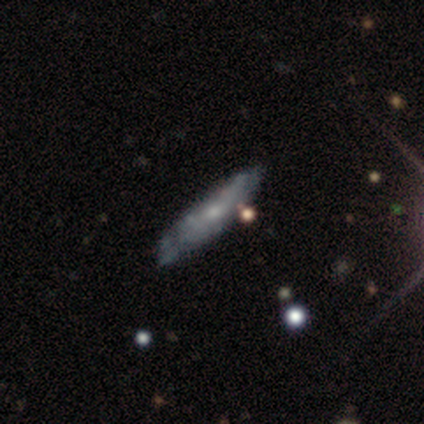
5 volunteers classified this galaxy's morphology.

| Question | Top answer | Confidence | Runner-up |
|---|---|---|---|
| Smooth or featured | featured or disk | 60% | smooth (40%) |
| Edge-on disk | no | 67% | yes (33%) |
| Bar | weak | 50% | tied: no (50%) |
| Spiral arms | yes | 50% | tied: no (50%) |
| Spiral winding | medium | 100% | — |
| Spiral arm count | can't tell | 100% | — |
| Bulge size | moderate | 50% | tied: small (50%) |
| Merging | minor disturbance | 60% | none (20%) |